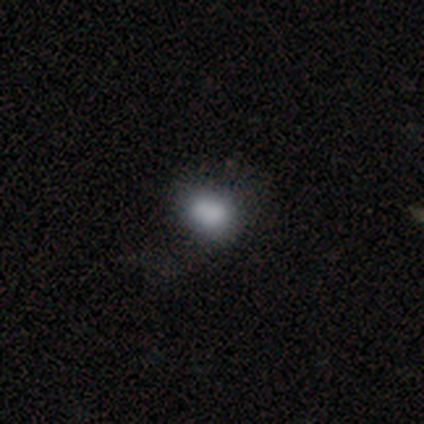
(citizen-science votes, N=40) Smooth or featured? 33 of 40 (82%) said smooth. How rounded? 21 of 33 (64%) said round. Merging? 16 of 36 (44%) said none.